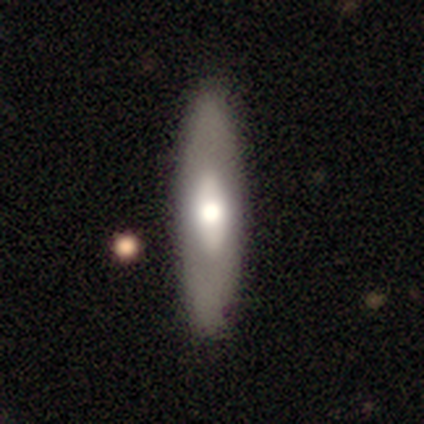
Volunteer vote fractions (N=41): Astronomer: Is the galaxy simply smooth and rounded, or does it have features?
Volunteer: featured or disk — 56% (runner-up: smooth, 39%).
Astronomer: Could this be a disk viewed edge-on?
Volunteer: no — 61% (runner-up: yes, 39%).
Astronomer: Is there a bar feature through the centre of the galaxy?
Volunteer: no — 64%.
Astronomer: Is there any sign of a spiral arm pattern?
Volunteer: no — 93%.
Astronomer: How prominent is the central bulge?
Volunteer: moderate — 71%.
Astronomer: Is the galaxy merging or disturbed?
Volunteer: none — 90%.